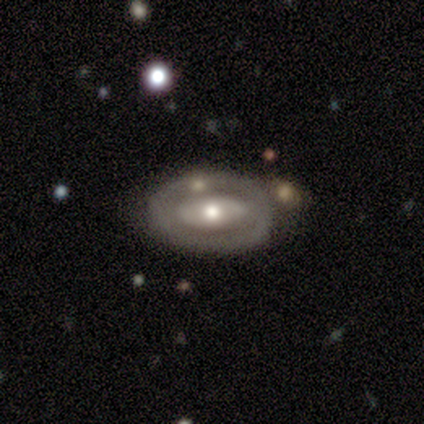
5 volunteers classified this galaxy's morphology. Smooth or featured?
  - featured or disk: 100% *
  - smooth: 0%
  - star or artifact: 0%
Edge-on disk?
  - no: 100% *
  - yes: 0%
Bar?
  - no: 100% *
  - strong: 0%
  - weak: 0%
Spiral arms?
  - no: 100% *
  - yes: 0%
Bulge size?
  - moderate: 100% *
  - dominant: 0%
  - large: 0%
  - small: 0%
  - none: 0%
Merging?
  - none: 60% *
  - minor disturbance: 20%
  - merger: 20%
  - major disturbance: 0%